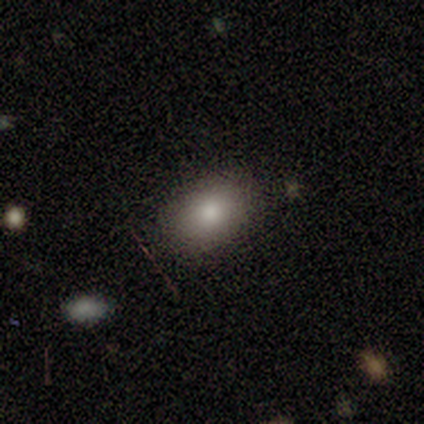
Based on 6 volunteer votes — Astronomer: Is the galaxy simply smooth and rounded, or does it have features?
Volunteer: smooth — 100%.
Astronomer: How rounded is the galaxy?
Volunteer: in between — 100%.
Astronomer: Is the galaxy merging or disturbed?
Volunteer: none — 100%.